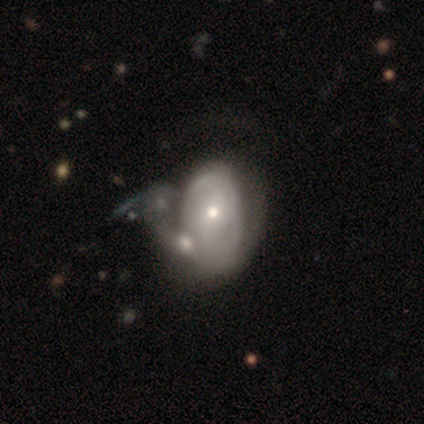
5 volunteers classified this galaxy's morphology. featured or disk 100%, smooth 0%, star or artifact 0%. Down the decision tree: edge-on disk — no (100%); bar — no (80%); spiral arms — yes (60%); spiral arm count — 2 (100%); spiral winding — tight (33%, tied with medium and loose); bulge size — moderate (80%); merging — major disturbance (40%, tied with merger).